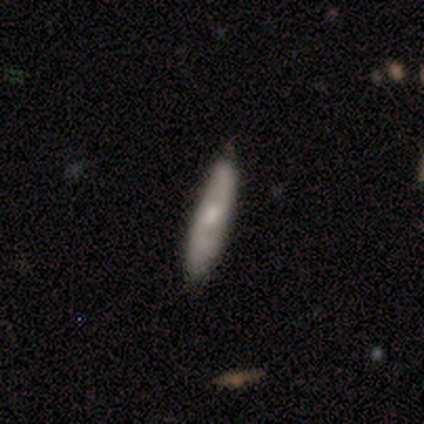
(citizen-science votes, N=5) Overall: featured or disk (60%; smooth 40%). Edge-on disk: no (67%; yes 33%). Bar: strong (50%, tied with weak). Spiral arms: yes (100%). Spiral arm count: 2 (50%, tied with can't tell). Spiral winding: medium (100%). Bulge size: moderate (50%, tied with small). Merging: minor disturbance (80%).